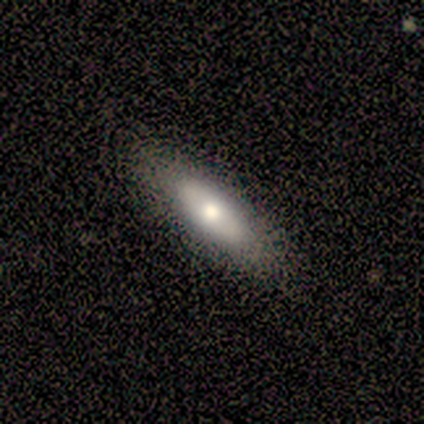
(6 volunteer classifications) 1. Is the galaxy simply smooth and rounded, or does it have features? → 83% smooth, 17% featured or disk, 0% star or artifact.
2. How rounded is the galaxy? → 60% cigar-shaped, 40% in between, 0% round.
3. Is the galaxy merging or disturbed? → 67% none, 17% minor disturbance, 17% major disturbance, 0% merger.